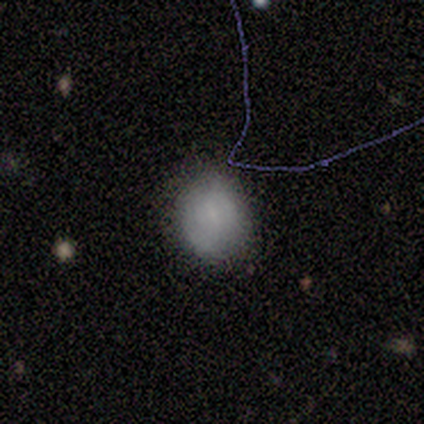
smooth 100%, featured or disk 0%, star or artifact 0%. Down the decision tree: how rounded — round (50%, tied with in between); merging — none (75%).